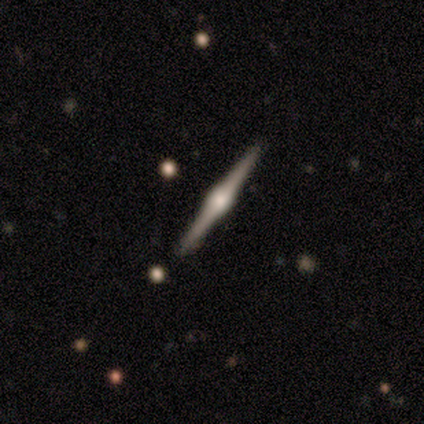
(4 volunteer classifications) Smooth or featured: featured or disk — 75% (smooth — 25%)
Edge-on disk: yes — 100%
Edge-on bulge: rounded — 100%
Merging: none — 100%